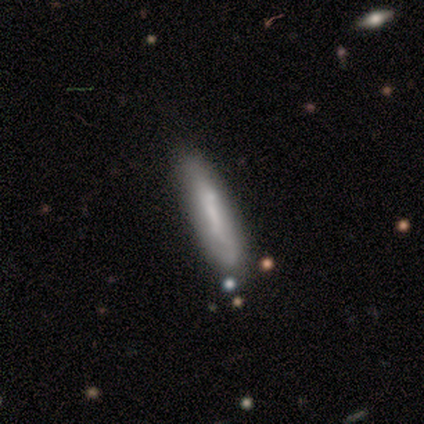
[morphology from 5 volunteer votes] Smooth or featured? smooth (80%)
How rounded? cigar-shaped (75%)
Merging? none (60%)